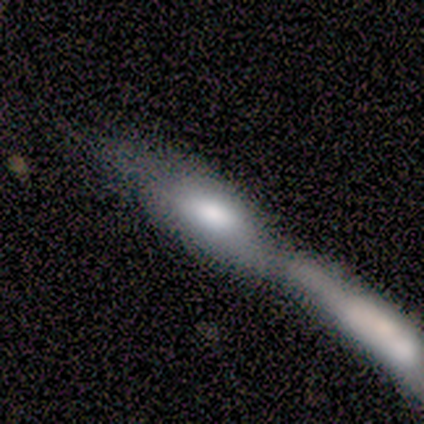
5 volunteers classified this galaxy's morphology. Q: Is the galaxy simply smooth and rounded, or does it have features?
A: smooth — 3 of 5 (60%).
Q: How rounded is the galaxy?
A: in between — 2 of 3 (67%).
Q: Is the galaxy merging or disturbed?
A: merger — 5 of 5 (100%).